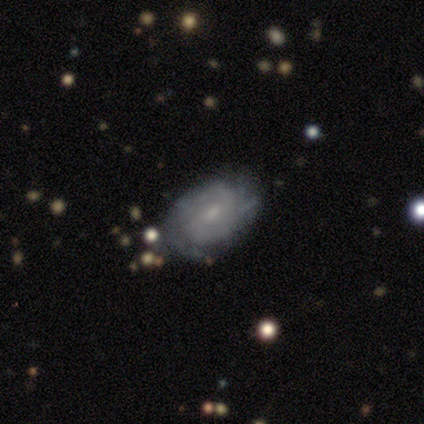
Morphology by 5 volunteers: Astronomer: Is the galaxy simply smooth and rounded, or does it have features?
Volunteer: featured or disk — 60% (runner-up: smooth, 40%).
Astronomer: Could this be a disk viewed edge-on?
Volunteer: no — 100%.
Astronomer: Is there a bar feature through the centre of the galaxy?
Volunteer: weak — 67%.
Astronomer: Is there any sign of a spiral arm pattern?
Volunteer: yes — 67%.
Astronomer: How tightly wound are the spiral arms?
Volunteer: tight — 50%, tied with loose at 50%.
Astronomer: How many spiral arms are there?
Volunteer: can't tell — 100%.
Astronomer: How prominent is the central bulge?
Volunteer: moderate — 67%.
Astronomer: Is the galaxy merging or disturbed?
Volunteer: none — 100%.